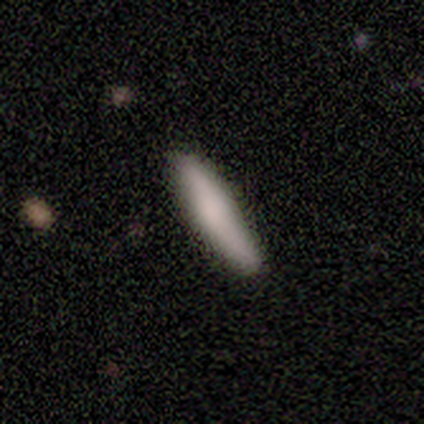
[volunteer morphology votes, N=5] A smooth galaxy with no disk features (100%) that is cigar-shaped (100%).

Vote fractions:
- Smooth or featured? smooth: 100% / featured or disk: 0% / star or artifact: 0%
- How rounded? cigar-shaped: 100% / round: 0% / in between: 0%
- Merging? none: 60% / minor disturbance: 40% / major disturbance: 0% / merger: 0%